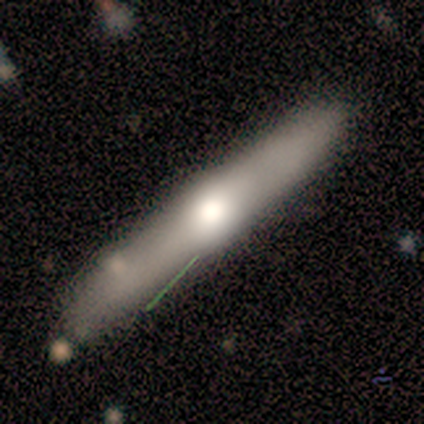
A featured or disk galaxy (88%) viewed edge-on (100%) with a rounded central bulge (100%). Merging: none (62%).